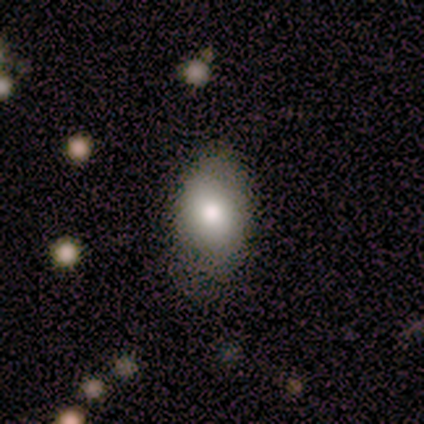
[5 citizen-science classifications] Smooth or featured? smooth (80%)
How rounded? in between (100%)
Merging? none (80%)